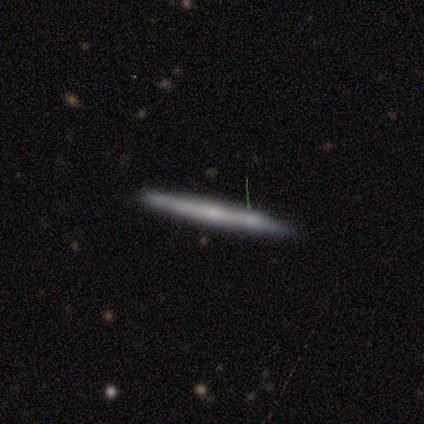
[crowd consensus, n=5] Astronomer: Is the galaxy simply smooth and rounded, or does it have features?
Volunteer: featured or disk — 60% (runner-up: smooth, 40%).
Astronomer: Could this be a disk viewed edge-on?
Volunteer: yes — 100%.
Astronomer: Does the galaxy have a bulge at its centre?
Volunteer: none — 67%.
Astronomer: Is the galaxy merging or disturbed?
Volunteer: none — 80%.